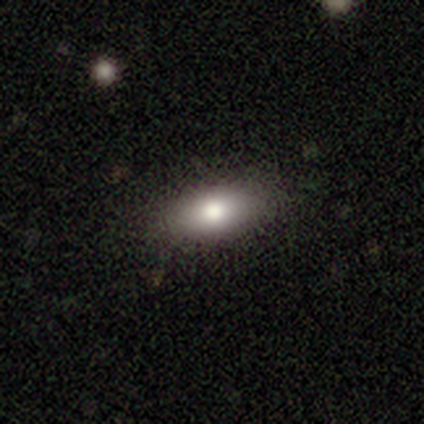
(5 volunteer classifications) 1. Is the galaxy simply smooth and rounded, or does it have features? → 80% smooth, 20% star or artifact, 0% featured or disk.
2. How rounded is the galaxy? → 100% in between, 0% round, 0% cigar-shaped.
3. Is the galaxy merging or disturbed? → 75% none, 25% minor disturbance, 0% major disturbance, 0% merger.